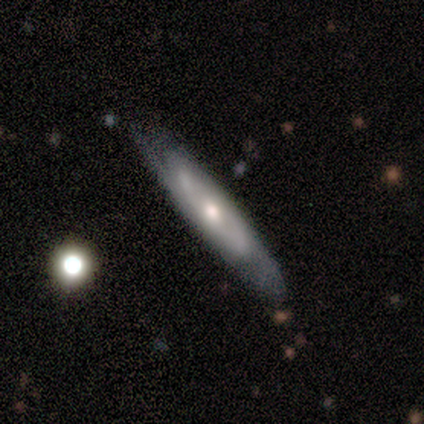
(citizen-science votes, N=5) A featured or disk galaxy (60%) with no bar (100%), 2 (100%) medium (50%, tied with loose) spiral arms (100%) and a moderate central bulge (100%). Merging: none (60%).